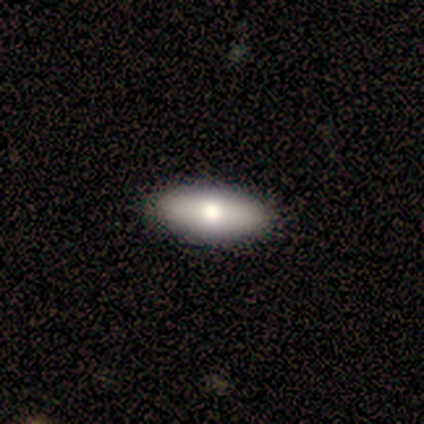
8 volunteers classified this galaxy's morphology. Smooth or featured?
  - smooth: 75% *
  - featured or disk: 25%
  - star or artifact: 0%
How rounded?
  - in between: 67% *
  - cigar-shaped: 33%
  - round: 0%
Merging?
  - none: 100% *
  - minor disturbance: 0%
  - major disturbance: 0%
  - merger: 0%